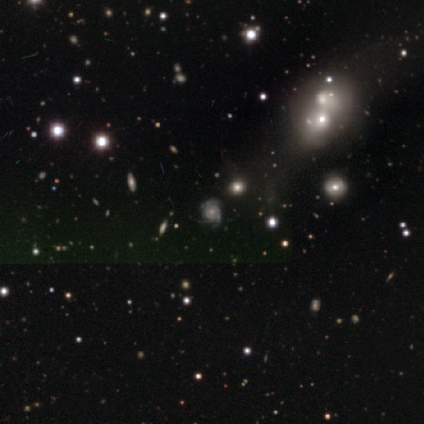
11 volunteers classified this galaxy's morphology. smooth-or-featured: featured or disk: 73% | star or artifact: 18% | smooth: 9%
  disk-edge-on: no: 100% | yes: 0%
    bar: no: 75% | weak: 25% | strong: 0%
    has-spiral-arms: yes: 75% | no: 25%
      spiral-winding: tight: 83% | medium: 17% | loose: 0%
      spiral-arm-count: 3: 50% | can't tell: 33% | 2: 17% | 1: 0% | 4: 0% | more than 4: 0%
    bulge-size: moderate: 50% | small: 38% | none: 12% | dominant: 0% | large: 0%
  merging: none: 78% | minor disturbance: 11% | merger: 11% | major disturbance: 0%